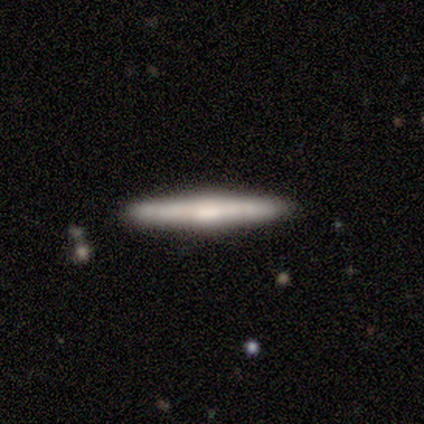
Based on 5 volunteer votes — Smooth or featured? featured or disk (60%)
Edge-on disk? yes (100%)
Edge-on bulge? none (67%)
Merging? none (100%)